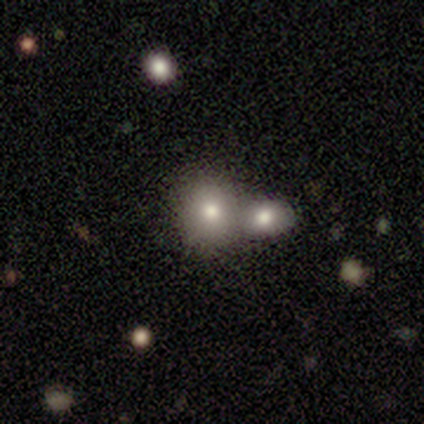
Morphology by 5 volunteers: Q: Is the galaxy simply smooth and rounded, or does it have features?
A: smooth — 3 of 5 (60%).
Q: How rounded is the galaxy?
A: in between — 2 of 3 (67%).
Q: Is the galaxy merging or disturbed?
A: merger — 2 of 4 (50%).